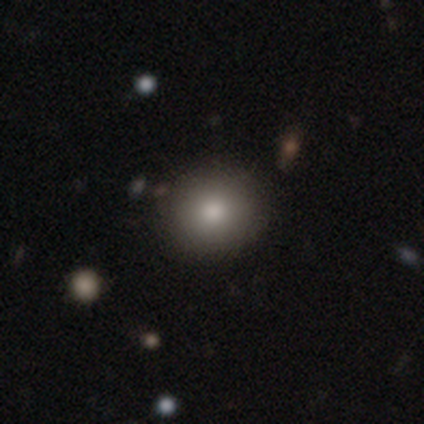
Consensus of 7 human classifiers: Smooth or featured? 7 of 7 (100%) said smooth. How rounded? 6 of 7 (86%) said round. Merging? 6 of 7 (86%) said none.